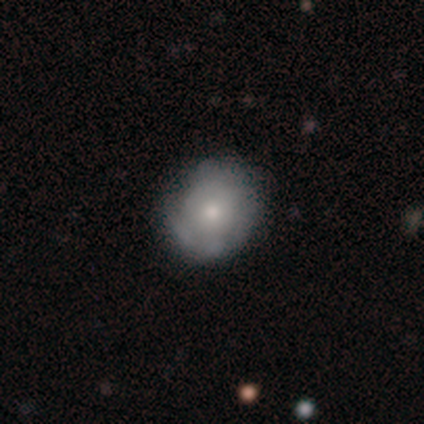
Smooth or featured?
  - smooth: 58% *
  - featured or disk: 42%
  - star or artifact: 0%
How rounded?
  - round: 95% *
  - in between: 5%
  - cigar-shaped: 0%
Merging?
  - none: 42% *
  - minor disturbance: 17%
  - major disturbance: 6%
  - merger: 6%